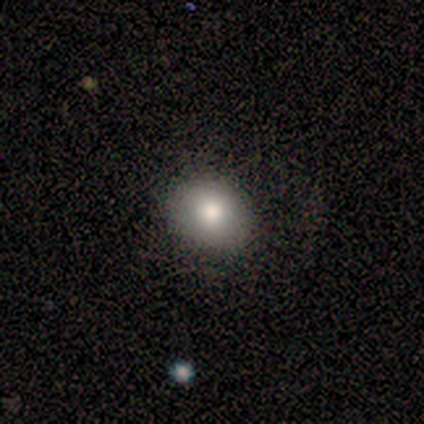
Smooth or featured?
  - smooth: 80% *
  - featured or disk: 20%
  - star or artifact: 0%
How rounded?
  - in between: 75% *
  - round: 25%
  - cigar-shaped: 0%
Merging?
  - none: 100% *
  - minor disturbance: 0%
  - major disturbance: 0%
  - merger: 0%